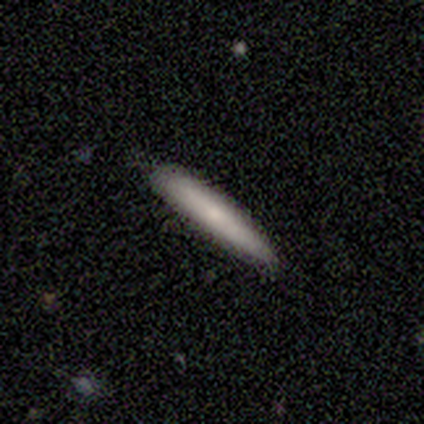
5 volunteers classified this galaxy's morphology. A smooth galaxy with no disk features (80%) that is cigar-shaped (100%). Merging: none (80%).